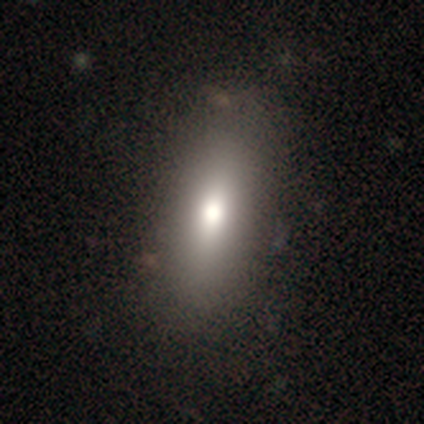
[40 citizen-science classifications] This appears to be a smooth galaxy with no disk features (82%) that is in between round and cigar-shaped (76%). Merging: none (84%).